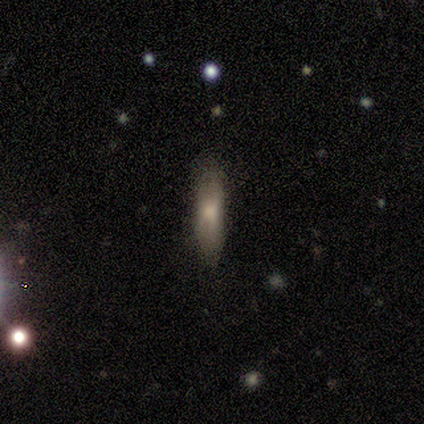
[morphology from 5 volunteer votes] This appears to be a smooth galaxy with no disk features (60%) that is cigar-shaped (100%). Merging: none (100%).